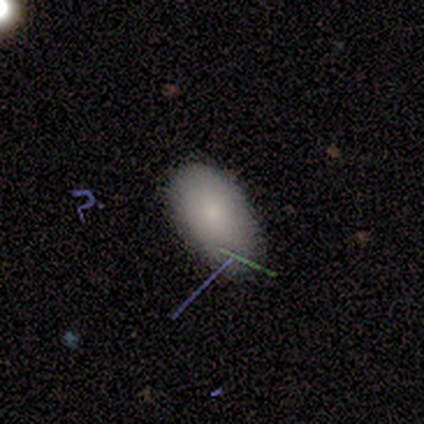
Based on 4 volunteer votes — Smooth or featured? 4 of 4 (100%) said smooth. How rounded? 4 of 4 (100%) said in between. Merging? 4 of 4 (100%) said none.